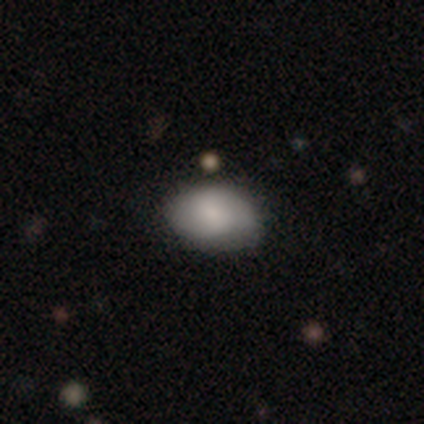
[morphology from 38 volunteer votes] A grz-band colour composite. It shows a smooth galaxy with no disk features (87%) that is in between round and cigar-shaped (73%). Merging: none (81%).